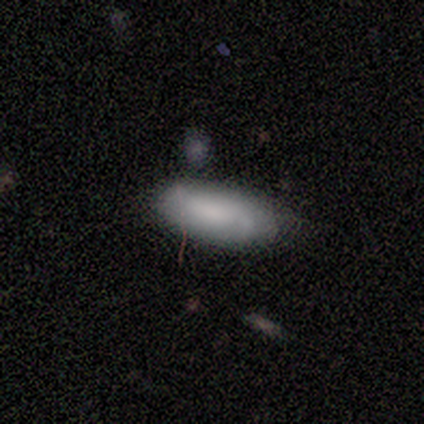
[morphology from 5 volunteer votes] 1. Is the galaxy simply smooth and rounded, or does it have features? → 100% smooth, 0% featured or disk, 0% star or artifact.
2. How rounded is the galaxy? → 100% in between, 0% round, 0% cigar-shaped.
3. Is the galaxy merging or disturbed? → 60% minor disturbance, 40% none, 0% major disturbance, 0% merger.